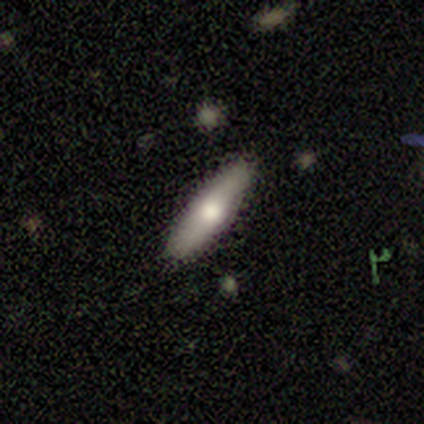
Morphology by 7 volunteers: This is possibly a smooth galaxy (57%). How rounded: likely in between (75%). Merging: clearly none (100%).